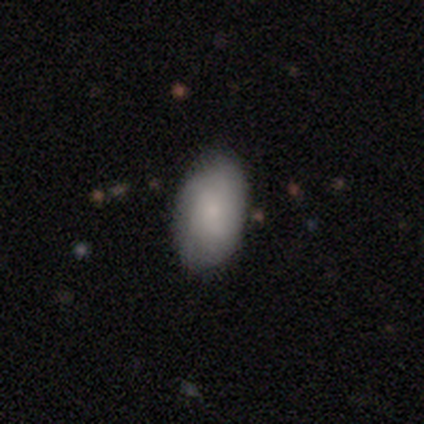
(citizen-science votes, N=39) This is likely a smooth galaxy (72%). How rounded: clearly in between (100%). Merging: possibly none (49%).